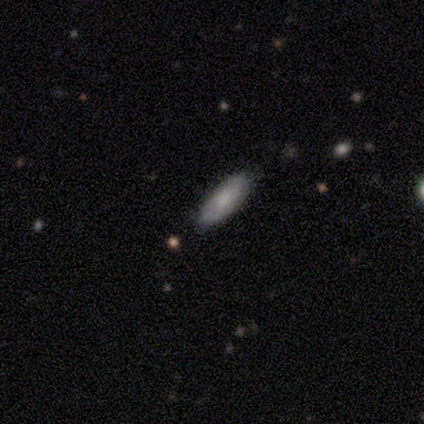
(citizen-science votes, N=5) Smooth or featured?
  - smooth: 80% *
  - featured or disk: 20%
  - star or artifact: 0%
How rounded?
  - cigar-shaped: 100% *
  - round: 0%
  - in between: 0%
Merging?
  - none: 80% *
  - minor disturbance: 20%
  - major disturbance: 0%
  - merger: 0%